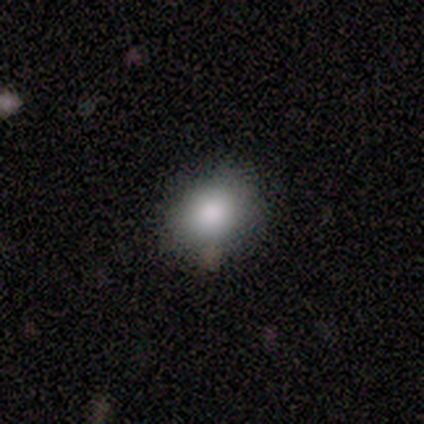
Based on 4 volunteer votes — This appears to be a smooth galaxy with no disk features (75%) that is in between round and cigar-shaped (100%). Merging: none (67%).